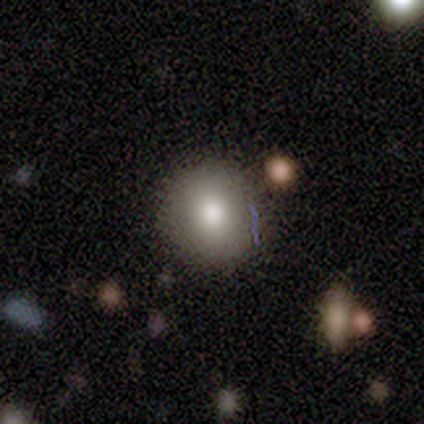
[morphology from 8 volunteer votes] A smooth galaxy with no disk features (75%) that is round (100%).

Vote fractions:
- Smooth or featured? smooth: 75% / featured or disk: 25% / star or artifact: 0%
- How rounded? round: 100% / in between: 0% / cigar-shaped: 0%
- Merging? none: 100% / minor disturbance: 0% / major disturbance: 0% / merger: 0%